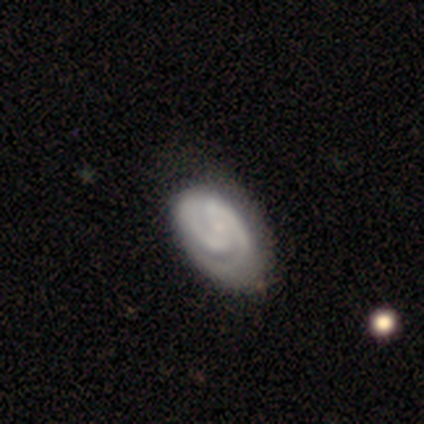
Smooth or featured? 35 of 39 (90%) said featured or disk. Edge-on disk? 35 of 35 (100%) said no. Bar? 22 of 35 (63%) said no. Spiral arms? 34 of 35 (97%) said yes. Spiral winding? 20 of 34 (59%) said tight. Spiral arm count? 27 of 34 (79%) said 2. Bulge size? 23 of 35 (66%) said small. Merging? 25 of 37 (68%) said none.